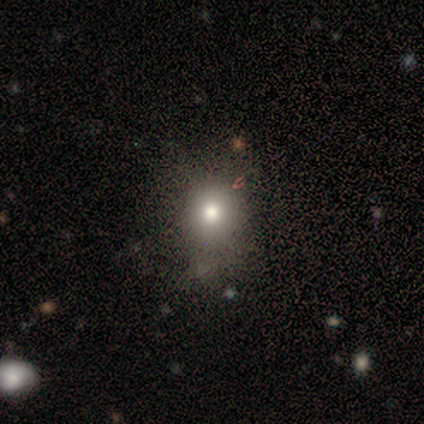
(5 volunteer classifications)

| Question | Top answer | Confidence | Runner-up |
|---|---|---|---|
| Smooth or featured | smooth | 80% | featured or disk (20%) |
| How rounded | round | 100% | — |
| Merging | none | 60% | minor disturbance (40%) |